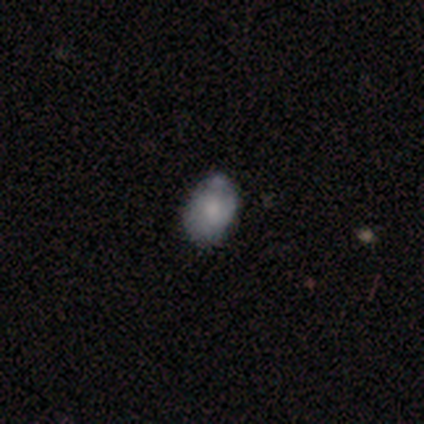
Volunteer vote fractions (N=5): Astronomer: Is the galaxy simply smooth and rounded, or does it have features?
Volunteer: smooth — 80%.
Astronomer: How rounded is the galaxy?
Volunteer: in between — 100%.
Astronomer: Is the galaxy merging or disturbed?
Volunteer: none — 60% (runner-up: minor disturbance, 40%).